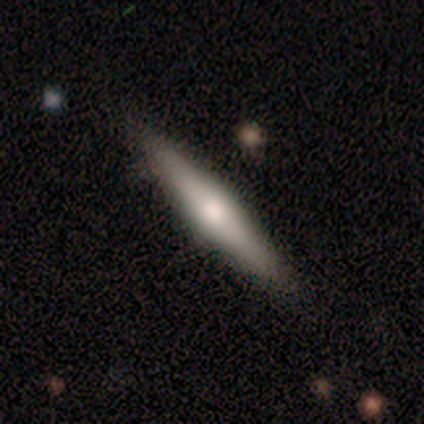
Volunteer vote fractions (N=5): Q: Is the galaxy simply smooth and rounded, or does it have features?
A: featured or disk — 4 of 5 (80%).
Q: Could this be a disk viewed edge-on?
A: yes — 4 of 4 (100%).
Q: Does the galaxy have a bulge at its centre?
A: rounded — 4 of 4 (100%).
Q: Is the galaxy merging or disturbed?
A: none — 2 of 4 (50%, tied with minor disturbance).